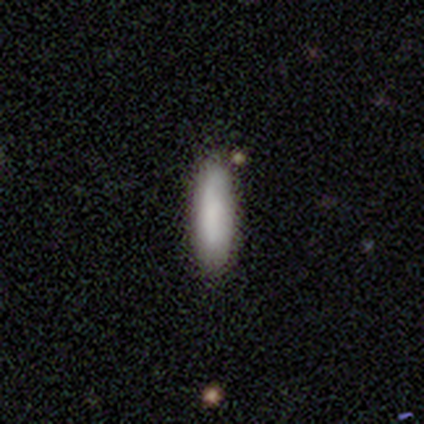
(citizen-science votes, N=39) Q: Smooth or featured?
A: smooth (92%); runner-up: featured or disk (5%)
Q: How rounded?
A: cigar-shaped (72%); runner-up: in between (28%)
Q: Merging?
A: none (74%); runner-up: minor disturbance (16%)